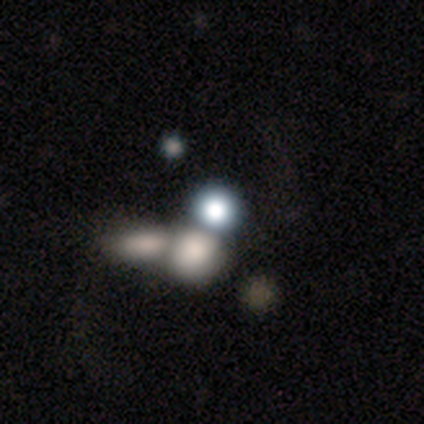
Q: Smooth or featured?
A: smooth (80%); runner-up: star or artifact (20%)
Q: How rounded?
A: round (50%); tied with: in between (50%)
Q: Merging?
A: merger (75%); runner-up: none (25%)